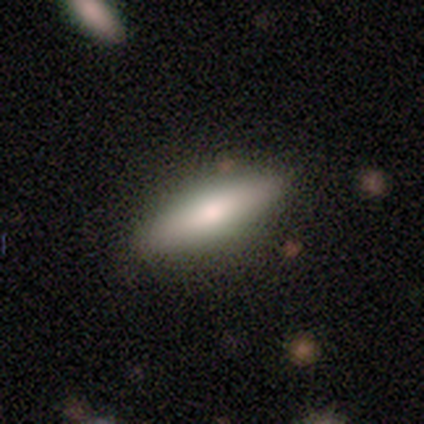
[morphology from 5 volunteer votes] Smooth or featured? smooth (80%)
How rounded? cigar-shaped (100%)
Merging? none (60%)